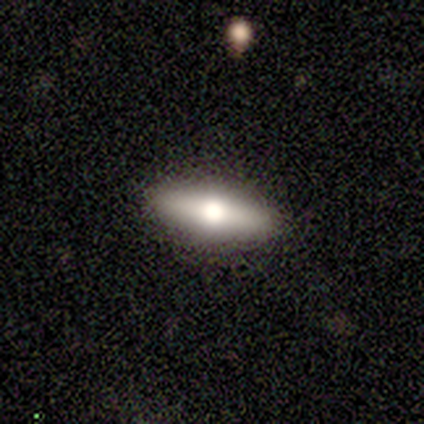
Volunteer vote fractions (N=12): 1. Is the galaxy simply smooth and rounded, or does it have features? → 58% smooth, 33% featured or disk, 8% star or artifact.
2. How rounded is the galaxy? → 71% cigar-shaped, 29% in between, 0% round.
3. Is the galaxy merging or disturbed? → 82% none, 9% minor disturbance, 9% major disturbance, 0% merger.